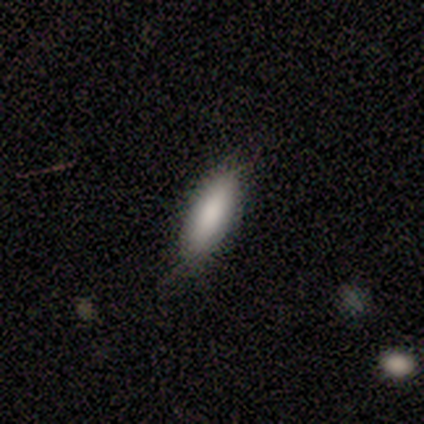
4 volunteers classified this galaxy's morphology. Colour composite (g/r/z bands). It shows a smooth galaxy with no disk features (100%) that is in between round and cigar-shaped (50%, tied with cigar-shaped). Merging: none (75%).